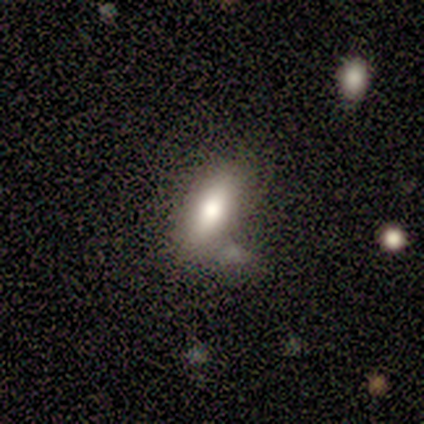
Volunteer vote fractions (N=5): smooth-or-featured: smooth: 100% | featured or disk: 0% | star or artifact: 0%
  how-rounded: in between: 80% | cigar-shaped: 20% | round: 0%
  merging: none: 60% | minor disturbance: 20% | major disturbance: 20% | merger: 0%